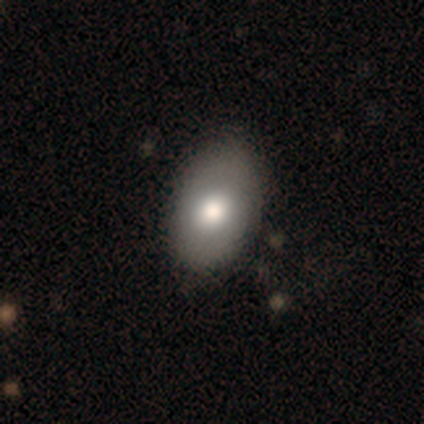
A smooth galaxy with no disk features (60%) that is in between round and cigar-shaped (83%). Merging: none (78%).